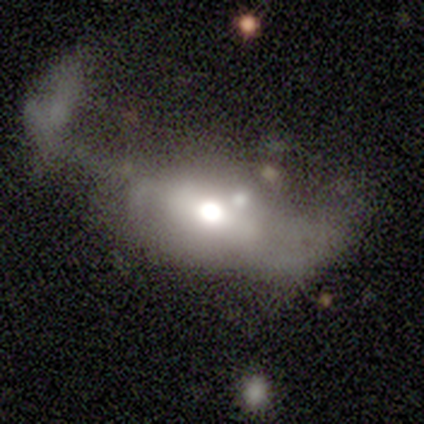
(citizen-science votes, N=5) This appears to be a featured or disk galaxy (60%) with no bar (100%), no spiral arms (100%) and a large central bulge (67%). Merging: major disturbance (75%).